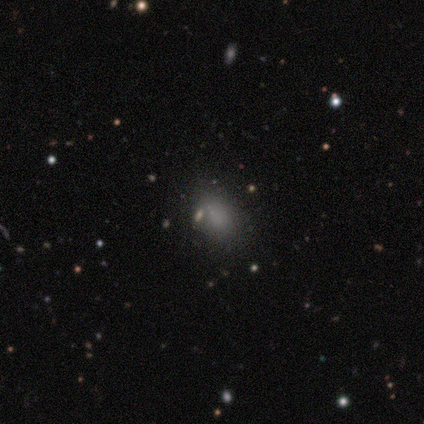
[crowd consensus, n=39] Volunteers were most divided on "merging": none: 59%, minor disturbance: 35%, major disturbance: 6%, merger: 0%. More confident: smooth or featured — smooth (82%); how rounded — in between (81%).